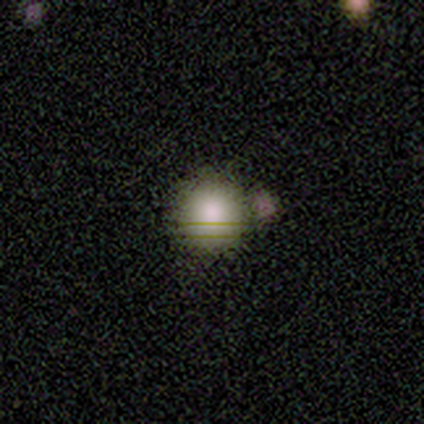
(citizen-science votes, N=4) A smooth galaxy with no disk features (75%) that is round (100%). Merging: none (100%).